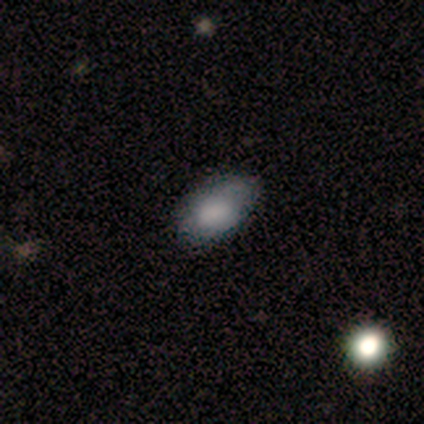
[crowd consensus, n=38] Morphology: type=smooth (71%); roundness=in between (93%); merging=none (80%).